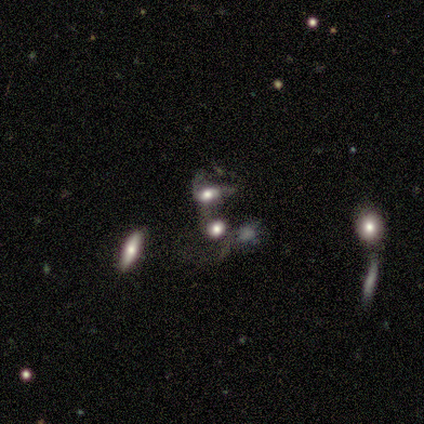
smooth_or_featured: smooth (p=0.60) [alt: featured or disk p=0.40]
how_rounded: round (p=0.67) [alt: in between p=0.33]
merging: merger (p=0.80) [alt: minor disturbance p=0.20]